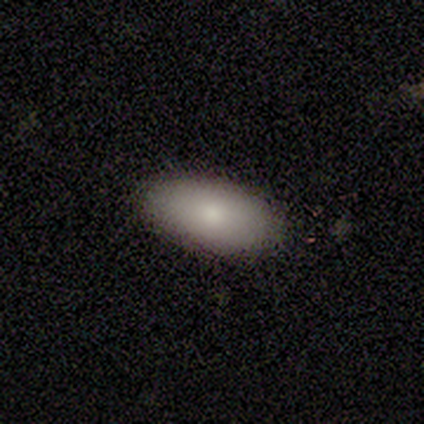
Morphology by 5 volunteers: Volunteers were most divided on "bar" (2-way tie): strong: 50%, no: 50%, weak: 0%; "spiral arms" (2-way tie): yes: 50%, no: 50%; "bulge size" (2-way tie): large: 50%, small: 50%, dominant: 0%, moderate: 0%, none: 0%. More confident: spiral winding — tight (100%); spiral arm count — more than 4 (100%); merging — none (80%); edge-on disk — no (67%); smooth or featured — featured or disk (60%).